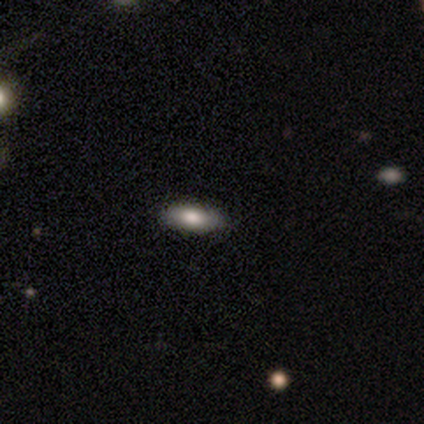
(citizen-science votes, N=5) Q: Smooth or featured?
A: smooth (80%); runner-up: featured or disk (20%)
Q: How rounded?
A: in between (100%)
Q: Merging?
A: none (100%)